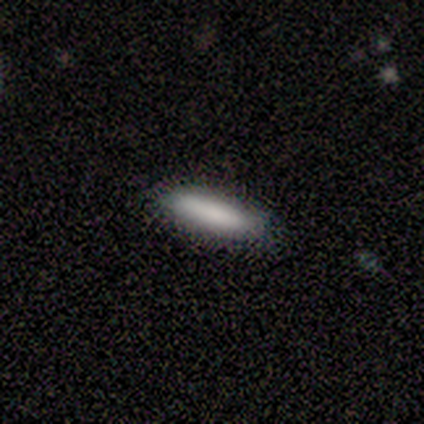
Smooth or featured: smooth — 80% (star or artifact — 20%)
How rounded: cigar-shaped — 75% (in between — 25%)
Merging: none — 100%